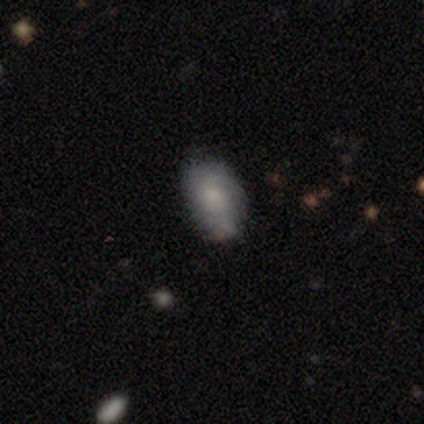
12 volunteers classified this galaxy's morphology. A smooth galaxy with no disk features (67%) that is in between round and cigar-shaped (100%).

Vote fractions:
- Smooth or featured? smooth: 67% / featured or disk: 25% / star or artifact: 8%
- How rounded? in between: 100% / round: 0% / cigar-shaped: 0%
- Merging? none: 73% / minor disturbance: 9% / major disturbance: 9% / merger: 9%